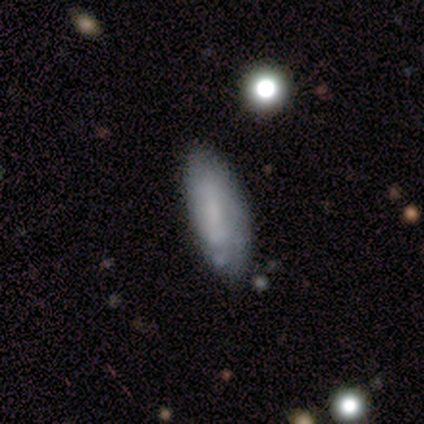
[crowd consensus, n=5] Overall: smooth (60%; featured or disk 40%). How rounded: in between (100%). Merging: none (100%).